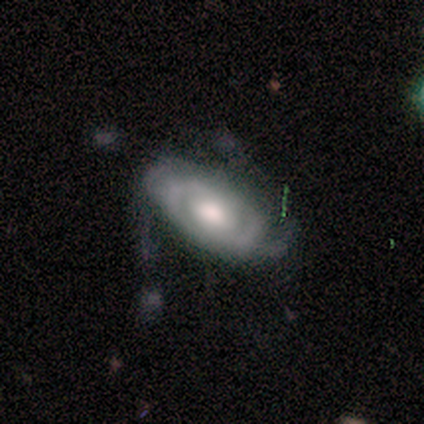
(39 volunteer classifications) Smooth or featured?
  - featured or disk: 64% *
  - smooth: 21%
  - star or artifact: 15%
Edge-on disk?
  - no: 84% *
  - yes: 16%
Bar?
  - no: 57% *
  - weak: 38%
  - strong: 5%
Spiral arms?
  - yes: 76% *
  - no: 24%
Spiral winding?
  - medium: 56% *
  - tight: 38%
  - loose: 6%
Spiral arm count?
  - 2: 62% *
  - can't tell: 19%
  - 3: 12%
  - 4: 6%
  - 1: 0%
  - more than 4: 0%
Bulge size?
  - moderate: 67% *
  - large: 24%
  - dominant: 5%
  - small: 5%
  - none: 0%
Merging?
  - none: 52% *
  - minor disturbance: 33%
  - major disturbance: 15%
  - merger: 0%